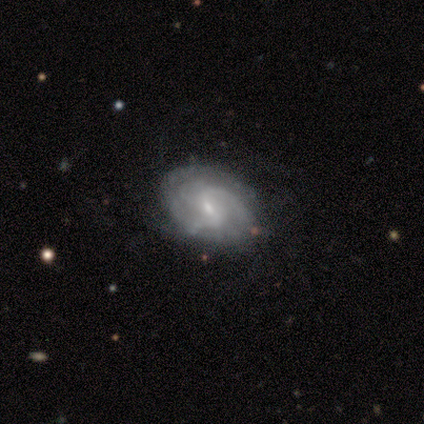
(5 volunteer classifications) Smooth or featured?
  - featured or disk: 100% *
  - smooth: 0%
  - star or artifact: 0%
Edge-on disk?
  - no: 100% *
  - yes: 0%
Bar?
  - weak: 60% *
  - no: 40%
  - strong: 0%
Spiral arms?
  - yes: 100% *
  - no: 0%
Spiral winding?
  - medium: 60% *
  - tight: 40%
  - loose: 0%
Spiral arm count?
  - 2: 60% *
  - 3: 20%
  - can't tell: 20%
  - 1: 0%
  - 4: 0%
  - more than 4: 0%
Bulge size?
  - small: 80% *
  - moderate: 20%
  - dominant: 0%
  - large: 0%
  - none: 0%
Merging?
  - none: 80% *
  - minor disturbance: 20%
  - major disturbance: 0%
  - merger: 0%